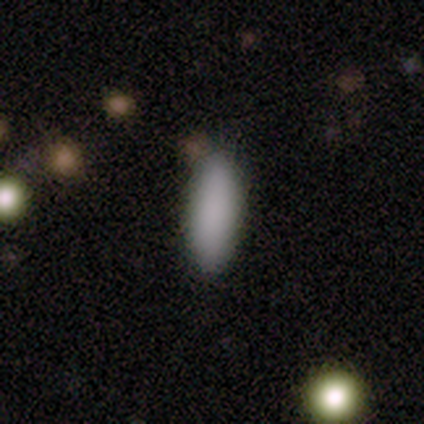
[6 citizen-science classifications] Smooth or featured: smooth — 83% (star or artifact — 17%)
How rounded: in between — 100%
Merging: none — 80% (minor disturbance — 20%)